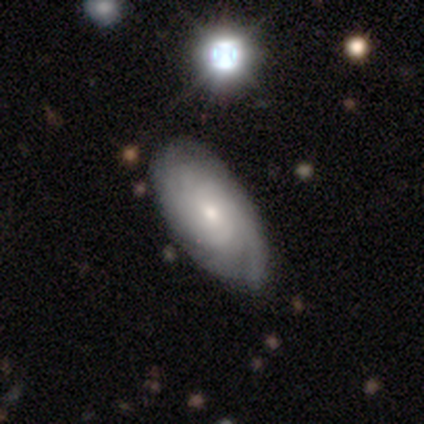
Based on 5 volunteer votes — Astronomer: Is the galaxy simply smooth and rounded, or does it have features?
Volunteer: featured or disk — 60%.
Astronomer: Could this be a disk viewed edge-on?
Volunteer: no — 100%.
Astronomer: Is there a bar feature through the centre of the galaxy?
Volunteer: strong — 33%, tied with weak and no at 33%.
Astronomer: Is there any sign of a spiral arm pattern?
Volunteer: yes — 100%.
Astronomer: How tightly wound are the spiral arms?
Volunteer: tight — 67%.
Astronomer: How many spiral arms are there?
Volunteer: can't tell — 67%.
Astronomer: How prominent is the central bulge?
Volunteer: small — 100%.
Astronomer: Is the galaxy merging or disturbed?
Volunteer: minor disturbance — 50%.